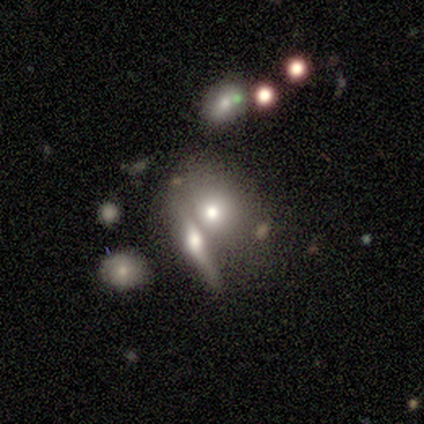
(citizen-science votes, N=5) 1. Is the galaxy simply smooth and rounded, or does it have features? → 40% smooth (tied), 40% star or artifact (tied), 20% featured or disk.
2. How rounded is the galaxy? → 50% in between (tied), 50% cigar-shaped (tied), 0% round.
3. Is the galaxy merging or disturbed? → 67% merger, 33% none, 0% minor disturbance, 0% major disturbance.